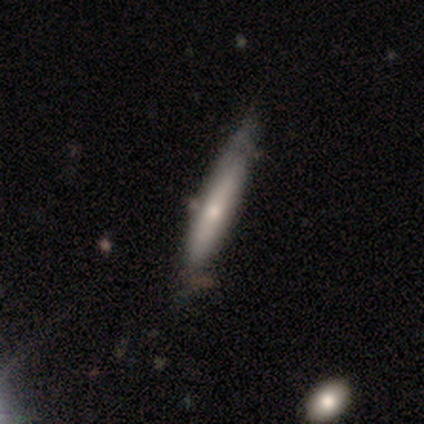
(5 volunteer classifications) Smooth or featured: smooth — 40% (tied with featured or disk — 40%)
How rounded: cigar-shaped — 100%
Merging: none — 100%